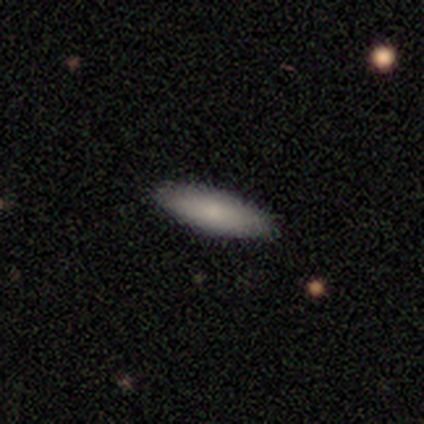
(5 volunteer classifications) Overall: smooth (100%). How rounded: cigar-shaped (100%). Merging: none (100%).